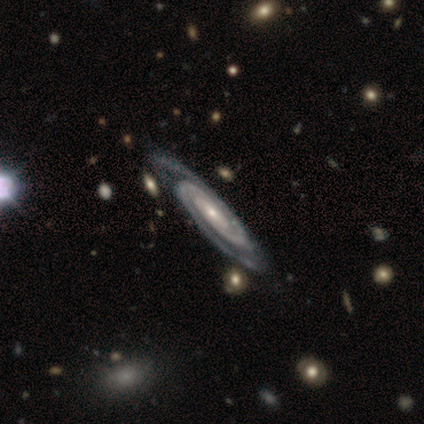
Morphology: type=featured or disk (100%); edge-on=no (100%); bar=weak (40%, tied with no); spiral arms=yes (100%); winding=tight (60%); arm count=can't tell (60%); bulge=small (60%); merging=none (100%).